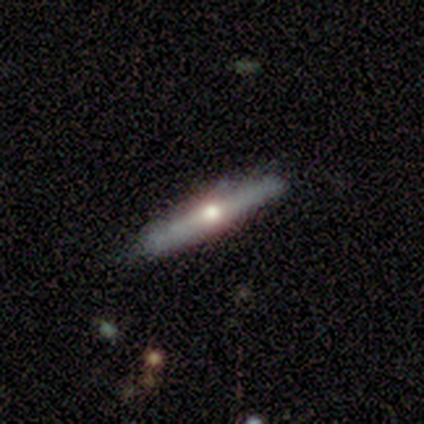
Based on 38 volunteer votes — Smooth or featured?
  - featured or disk: 71% *
  - smooth: 29%
  - star or artifact: 0%
Edge-on disk?
  - yes: 81% *
  - no: 19%
Edge-on bulge?
  - rounded: 95% *
  - boxy: 5%
  - none: 0%
Merging?
  - none: 82% *
  - minor disturbance: 11%
  - merger: 5%
  - major disturbance: 3%